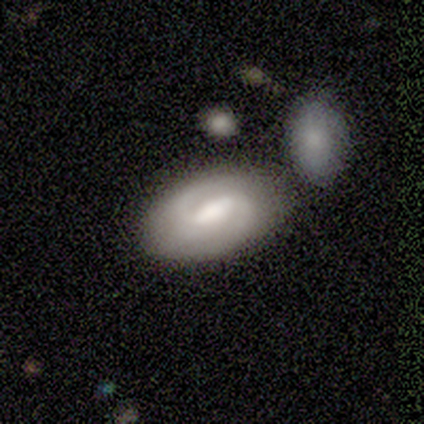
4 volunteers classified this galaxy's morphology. A featured or disk galaxy (100%) with a weak bar (100%), 2 (75%) tight (50%) spiral arms (100%) and a large central bulge (75%).

Vote fractions:
- Smooth or featured? featured or disk: 100% / smooth: 0% / star or artifact: 0%
- Edge-on disk? no: 100% / yes: 0%
- Bar? weak: 100% / strong: 0% / no: 0%
- Spiral arms? yes: 100% / no: 0%
- Spiral winding? tight: 50% / medium: 25% / loose: 25%
- Spiral arm count? 2: 75% / 1: 25% / 3: 0% / 4: 0% / more than 4: 0% / can't tell: 0%
- Bulge size? large: 75% / moderate: 25% / dominant: 0% / small: 0% / none: 0%
- Merging? none: 75% / minor disturbance: 25% / major disturbance: 0% / merger: 0%